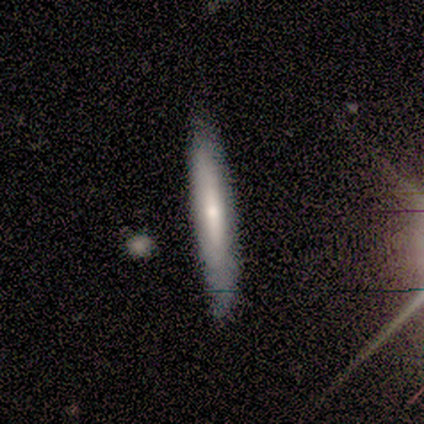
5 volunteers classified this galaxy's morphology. smooth-or-featured: smooth: 80% | featured or disk: 20% | star or artifact: 0%
  how-rounded: cigar-shaped: 100% | round: 0% | in between: 0%
  merging: none: 100% | minor disturbance: 0% | major disturbance: 0% | merger: 0%